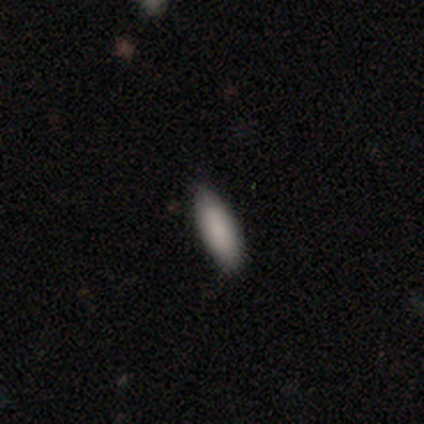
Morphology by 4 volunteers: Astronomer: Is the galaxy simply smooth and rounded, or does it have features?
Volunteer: smooth — 75%.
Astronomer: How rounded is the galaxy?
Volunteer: in between — 67%.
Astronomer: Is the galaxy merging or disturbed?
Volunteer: none — 100%.